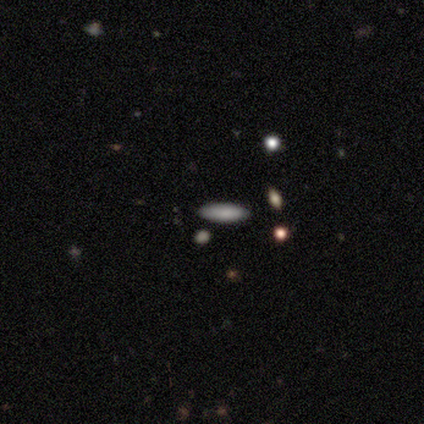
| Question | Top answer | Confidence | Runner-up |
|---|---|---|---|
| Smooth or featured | smooth | 50% | featured or disk (25%) |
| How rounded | cigar-shaped | 100% | — |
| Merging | none | 100% | — |